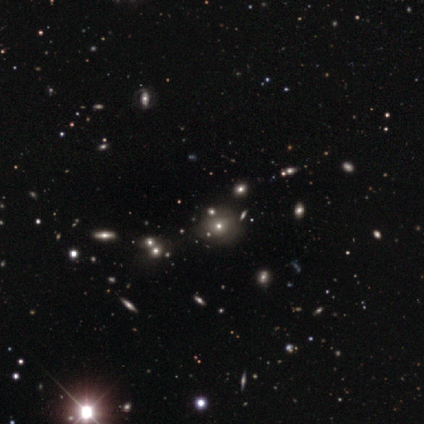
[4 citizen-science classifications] smooth 50%, featured or disk 25%, star or artifact 25%. Down the decision tree: how rounded — round (100%); merging — none (100%).